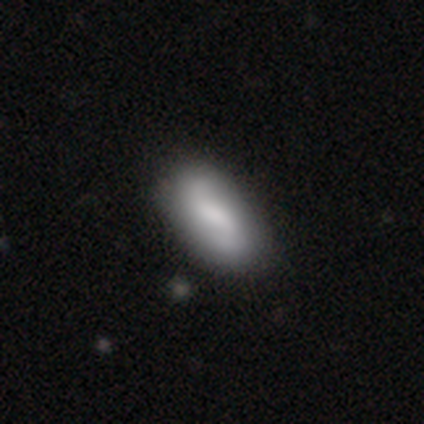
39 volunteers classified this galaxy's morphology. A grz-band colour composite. It shows a smooth galaxy with no disk features (54%) that is in between round and cigar-shaped (90%). Merging: none (59%).